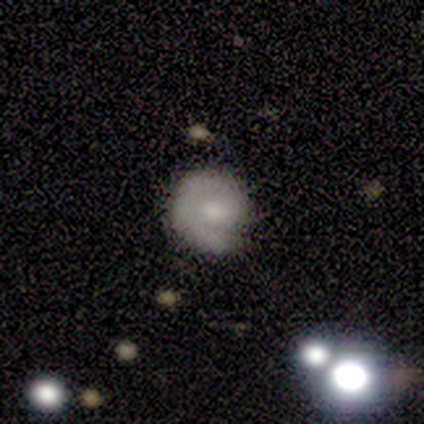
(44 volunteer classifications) Morphology: type=featured or disk (50%); edge-on=no (100%); bar=no (73%); spiral arms=yes (82%); winding=tight (83%); arm count=1 (83%); bulge=moderate (55%); merging=none (72%).